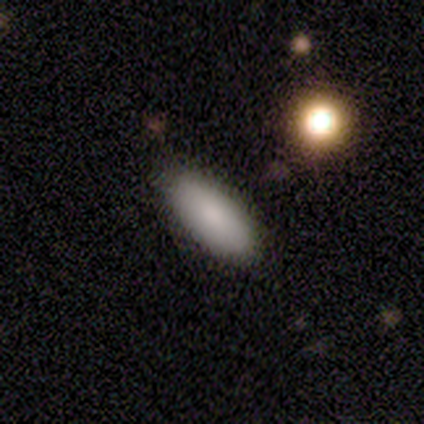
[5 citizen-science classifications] A smooth galaxy with no disk features (100%) that is in between round and cigar-shaped (60%). Merging: none (80%).